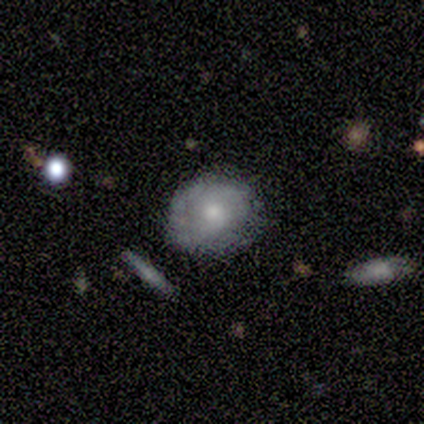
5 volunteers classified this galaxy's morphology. A featured or disk galaxy (60%) with no bar (100%), tight (33%, tied with medium and loose) spiral arms (100%) and a moderate central bulge (33%, tied with small and none).

Vote fractions:
- Smooth or featured? featured or disk: 60% / smooth: 40% / star or artifact: 0%
- Edge-on disk? no: 100% / yes: 0%
- Bar? no: 100% / strong: 0% / weak: 0%
- Spiral arms? yes: 100% / no: 0%
- Spiral winding? tight: 33% (tied) / medium: 33% (tied) / loose: 33% (tied)
- Spiral arm count? can't tell: 67% / 2: 33% / 1: 0% / 3: 0% / 4: 0% / more than 4: 0%
- Bulge size? moderate: 33% (tied) / small: 33% (tied) / none: 33% (tied) / dominant: 0% / large: 0%
- Merging? none: 60% / minor disturbance: 20% / major disturbance: 20% / merger: 0%